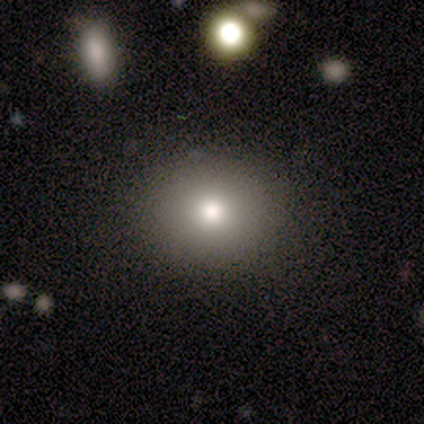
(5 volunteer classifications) smooth_or_featured: smooth (p=1.00)
how_rounded: in between (p=0.60) [alt: round p=0.40]
merging: none (p=1.00)